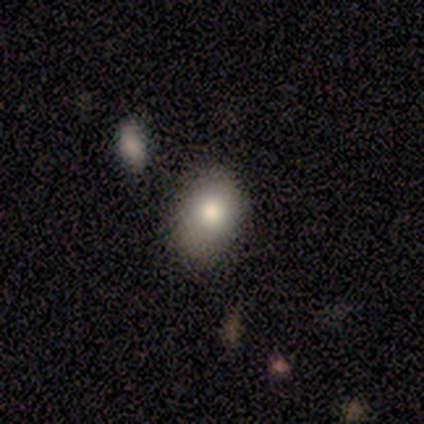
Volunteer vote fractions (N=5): smooth 60%, featured or disk 40%, star or artifact 0%. Down the decision tree: how rounded — round (100%); merging — none (100%).